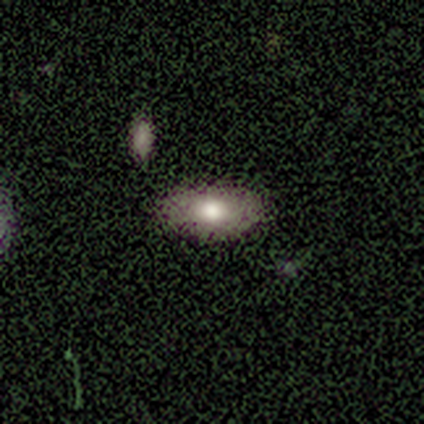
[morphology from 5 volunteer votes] type=smooth (100%); roundness=in between (100%); merging=none (100%).